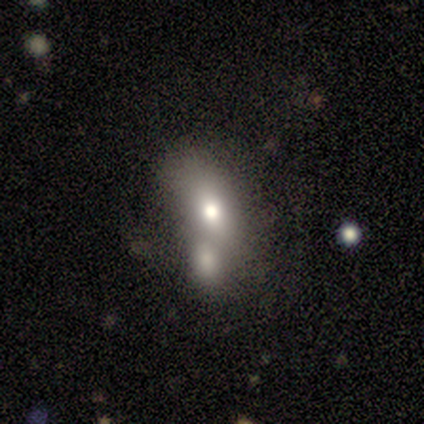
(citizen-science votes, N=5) Q: Smooth or featured?
A: smooth (100%)
Q: How rounded?
A: in between (100%)
Q: Merging?
A: merger (60%); runner-up: none (20%)